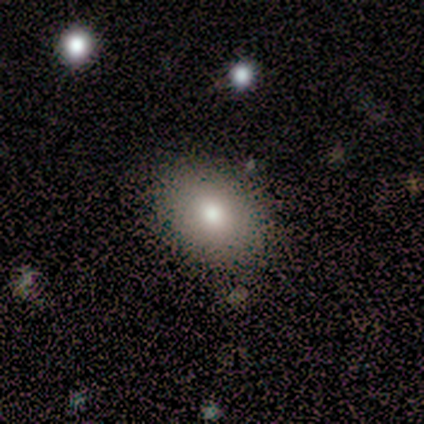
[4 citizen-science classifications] This appears to be a smooth galaxy with no disk features (75%) that is in between round and cigar-shaped (67%). Merging: none (75%).